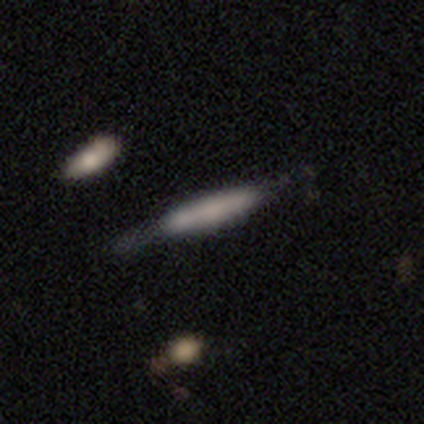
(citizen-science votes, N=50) smooth_or_featured: smooth (p=0.48) [alt: featured or disk p=0.46]
how_rounded: cigar-shaped (p=1.00)
merging: none (p=0.66) [alt: minor disturbance p=0.23]